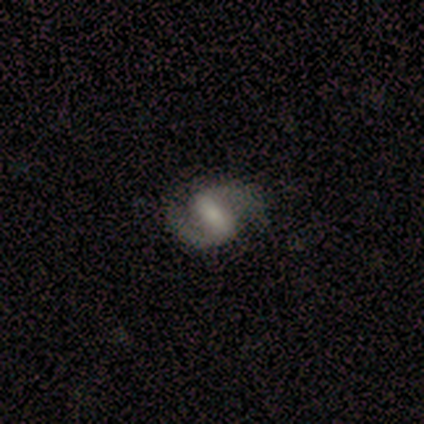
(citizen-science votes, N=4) Smooth or featured? featured or disk (100%)
Edge-on disk? no (100%)
Bar? strong (50%, tied with weak)
Spiral arms? yes (100%)
Spiral winding? medium (50%, tied with loose)
Spiral arm count? 2 (100%)
Bulge size? small (50%)
Merging? none (75%)